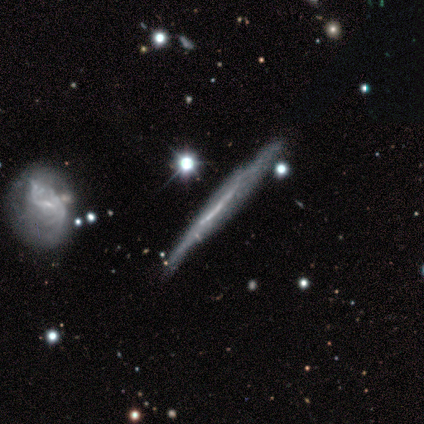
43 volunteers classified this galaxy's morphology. Volunteers were most divided on "merging": none: 56%, minor disturbance: 40%, major disturbance: 2%, merger: 2%. More confident: smooth or featured — featured or disk (86%); edge-on bulge — none (78%); edge-on disk — yes (73%).